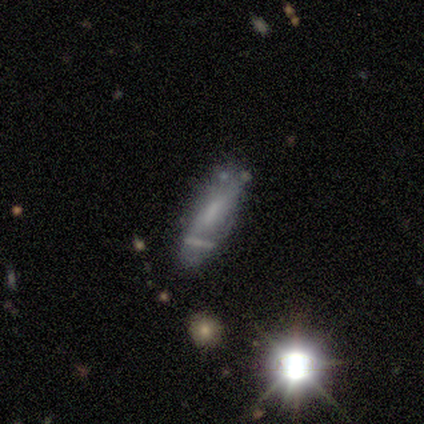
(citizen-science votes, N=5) featured or disk 40% (tied), star or artifact 40% (tied), smooth 20%. Down the decision tree: edge-on disk — no (100%); bar — weak (50%, tied with no); spiral arms — no (100%); bulge size — none (100%); merging — minor disturbance (67%).